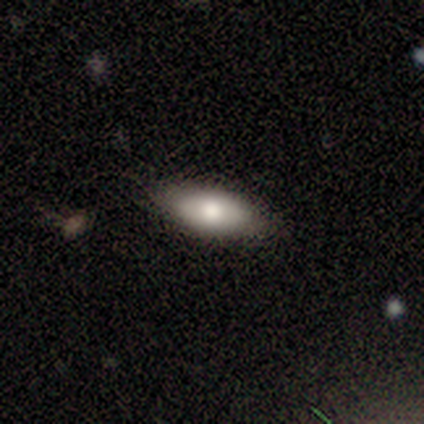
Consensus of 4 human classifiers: Smooth or featured? smooth (100%)
How rounded? in between (50%)
Merging? none (75%)